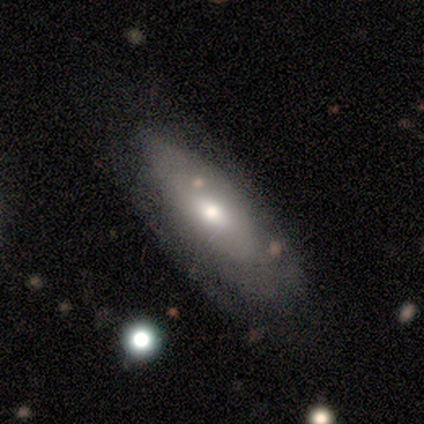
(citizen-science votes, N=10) Overall: featured or disk (50%; smooth 40%). Edge-on disk: no (60%; yes 40%). Bar: no (67%; weak 33%). Spiral arms: no (67%; yes 33%). Bulge size: large (33%, tied with moderate and small). Merging: none (44%; minor disturbance 33%).